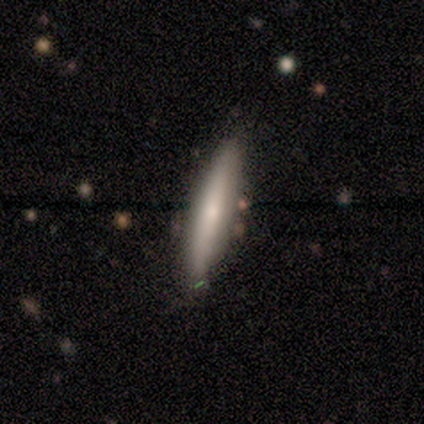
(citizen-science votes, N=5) smooth 80%, featured or disk 20%, star or artifact 0%. Down the decision tree: how rounded — cigar-shaped (75%); merging — none (100%).